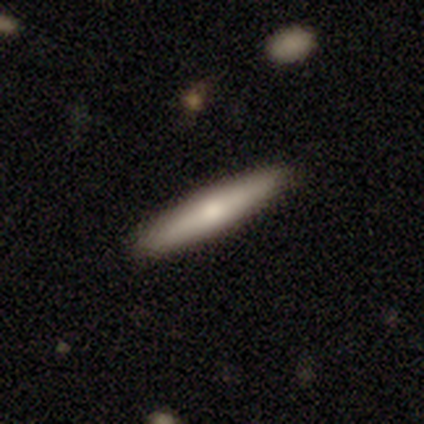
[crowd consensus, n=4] This appears to be a smooth galaxy with no disk features (100%) that is cigar-shaped (100%). Merging: none (75%).